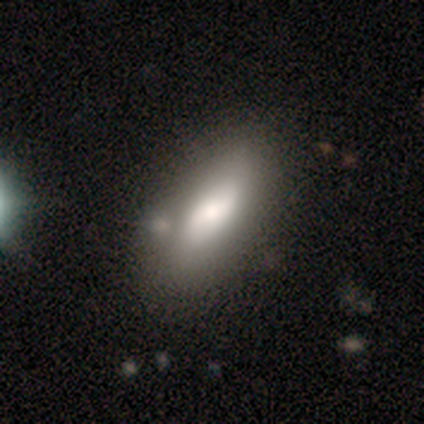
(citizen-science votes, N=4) This appears to be a featured or disk galaxy (50%) viewed edge-on (50%, tied with no) with a rounded central bulge (100%). Merging: none (100%).